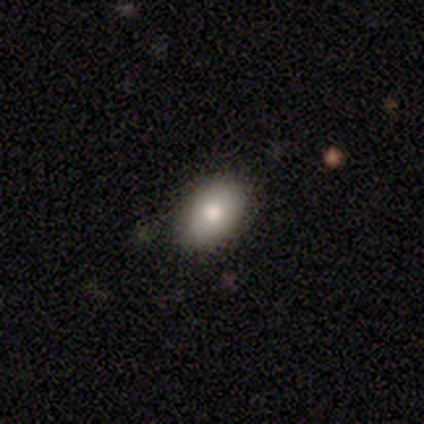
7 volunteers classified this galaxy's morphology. Volunteers were most divided on "smooth or featured": smooth: 71%, featured or disk: 29%, star or artifact: 0%. More confident: how rounded — in between (100%); merging — none (71%).